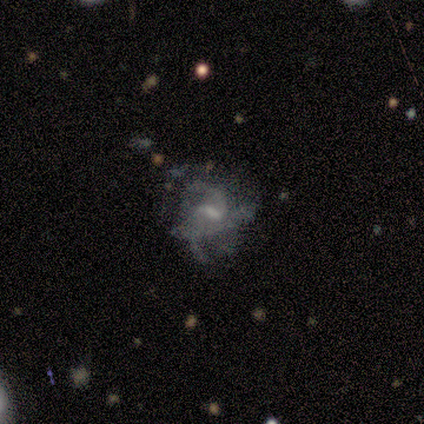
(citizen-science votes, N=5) smooth-or-featured: featured or disk: 100% | smooth: 0% | star or artifact: 0%
  disk-edge-on: no: 100% | yes: 0%
    bar: weak: 60% | strong: 20% | no: 20%
    has-spiral-arms: yes: 80% | no: 20%
      spiral-winding: tight: 50% | medium: 25% | loose: 25%
      spiral-arm-count: 2: 50% (tied) | can't tell: 50% (tied) | 1: 0% | 3: 0% | 4: 0% | more than 4: 0%
    bulge-size: moderate: 60% | small: 20% | none: 20% | dominant: 0% | large: 0%
  merging: none: 40% (tied) | major disturbance: 40% (tied) | minor disturbance: 20% | merger: 0%